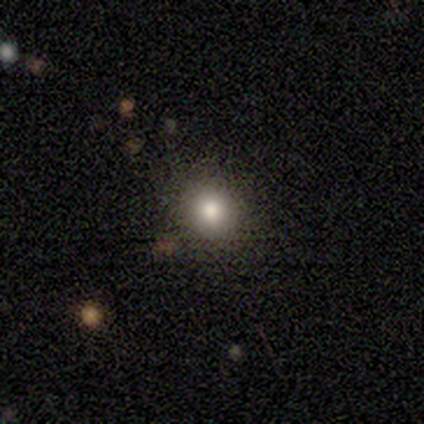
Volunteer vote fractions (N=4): A smooth galaxy with no disk features (75%) that is round (100%).

Vote fractions:
- Smooth or featured? smooth: 75% / featured or disk: 25% / star or artifact: 0%
- How rounded? round: 100% / in between: 0% / cigar-shaped: 0%
- Merging? none: 100% / minor disturbance: 0% / major disturbance: 0% / merger: 0%